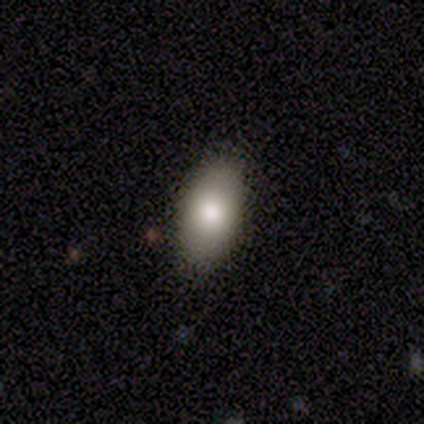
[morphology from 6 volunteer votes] smooth-or-featured: smooth: 100% | featured or disk: 0% | star or artifact: 0%
  how-rounded: in between: 67% | round: 17% | cigar-shaped: 17%
  merging: none: 67% | minor disturbance: 17% | major disturbance: 17% | merger: 0%